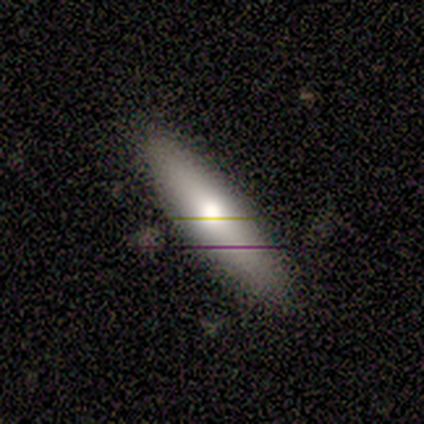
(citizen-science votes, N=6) This is likely a featured or disk galaxy (67%). It is clearly viewed edge-on (100%). Edge-on bulge: possibly boxy (50%). Merging: likely none (75%).